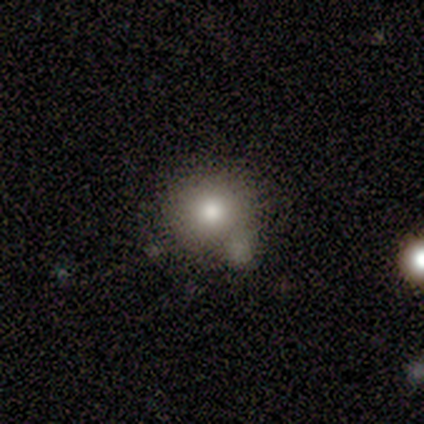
Overall: smooth (78%). How rounded: round (94%). Merging: merger (26%; minor disturbance 24%).